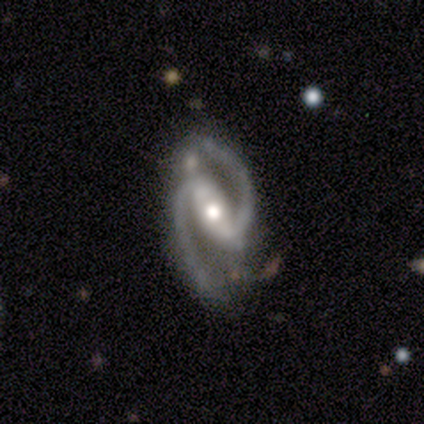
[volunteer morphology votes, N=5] A featured or disk galaxy (100%) with a strong bar (100%), 2 (100%) medium (40%, tied with loose) spiral arms (100%) and a large central bulge (40%, tied with moderate). Merging: none (60%).